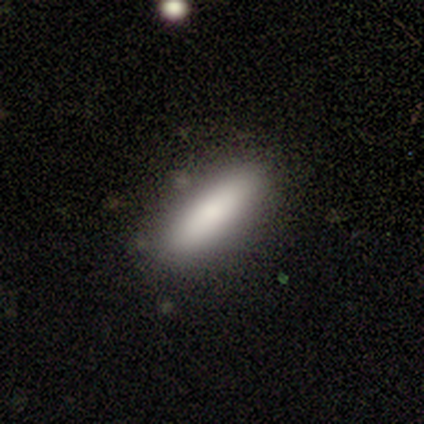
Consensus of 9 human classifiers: Q: Smooth or featured?
A: smooth (56%); runner-up: featured or disk (33%)
Q: How rounded?
A: cigar-shaped (60%); runner-up: in between (40%)
Q: Merging?
A: none (88%); runner-up: minor disturbance (12%)